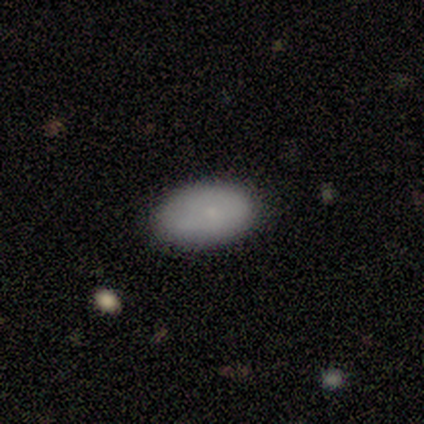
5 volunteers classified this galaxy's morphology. This appears to be a smooth galaxy with no disk features (100%) that is in between round and cigar-shaped (100%). Merging: none (80%).